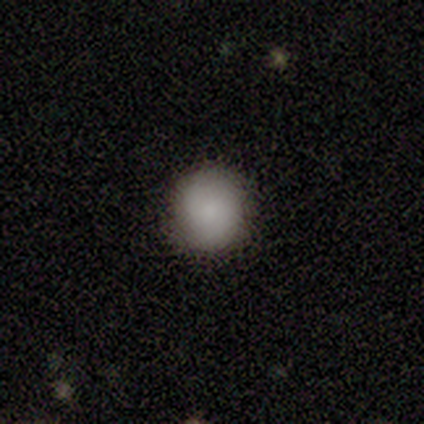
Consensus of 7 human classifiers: Smooth or featured? 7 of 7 (100%) said smooth. How rounded? 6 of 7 (86%) said round. Merging? 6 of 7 (86%) said none.